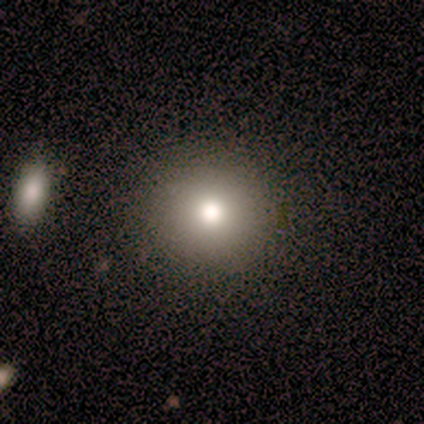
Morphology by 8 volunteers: Q: Smooth or featured?
A: smooth (88%); runner-up: star or artifact (12%)
Q: How rounded?
A: round (100%)
Q: Merging?
A: none (100%)